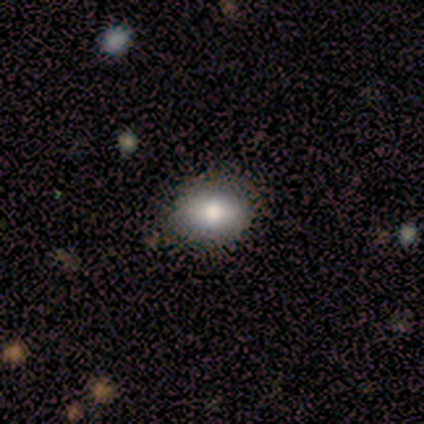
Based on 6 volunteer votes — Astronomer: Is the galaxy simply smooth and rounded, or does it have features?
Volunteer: smooth — 83%.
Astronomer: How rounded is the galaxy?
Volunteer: in between — 80%.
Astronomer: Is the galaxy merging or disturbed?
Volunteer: none — 83%.